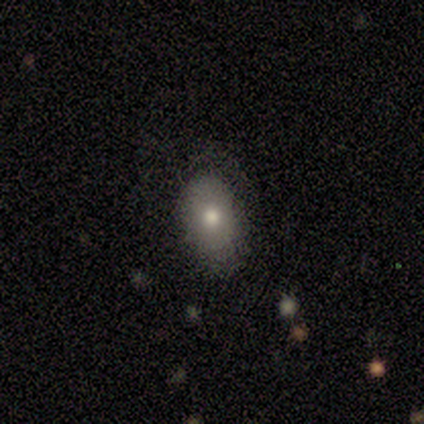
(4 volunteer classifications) This is clearly a smooth galaxy (100%). How rounded: clearly in between (100%). Merging: likely none (75%).